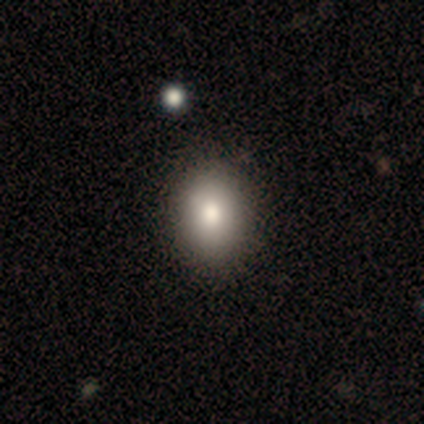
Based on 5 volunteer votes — smooth_or_featured: smooth (p=0.80) [alt: featured or disk p=0.20]
how_rounded: round (p=0.50) [tied with: in between p=0.50]
merging: none (p=0.80) [alt: minor disturbance p=0.20]